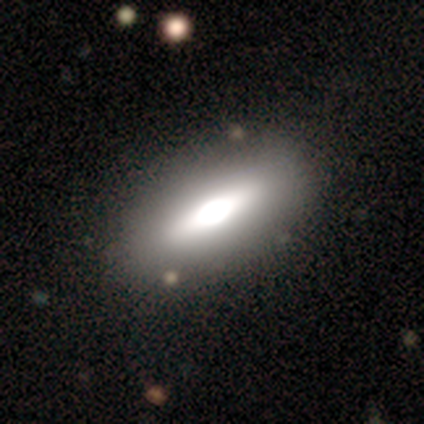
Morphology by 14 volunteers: Smooth or featured?
  - featured or disk: 50% *
  - smooth: 36%
  - star or artifact: 14%
Edge-on disk?
  - yes: 86% *
  - no: 14%
Edge-on bulge?
  - rounded: 67% *
  - boxy: 33%
  - none: 0%
Merging?
  - none: 100% *
  - minor disturbance: 0%
  - major disturbance: 0%
  - merger: 0%